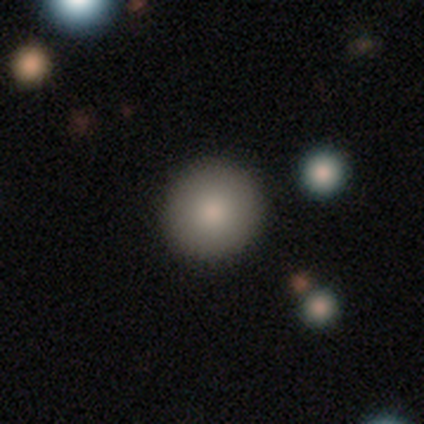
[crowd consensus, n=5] smooth-or-featured: smooth: 80% | featured or disk: 20% | star or artifact: 0%
  how-rounded: round: 100% | in between: 0% | cigar-shaped: 0%
  merging: none: 80% | major disturbance: 20% | minor disturbance: 0% | merger: 0%